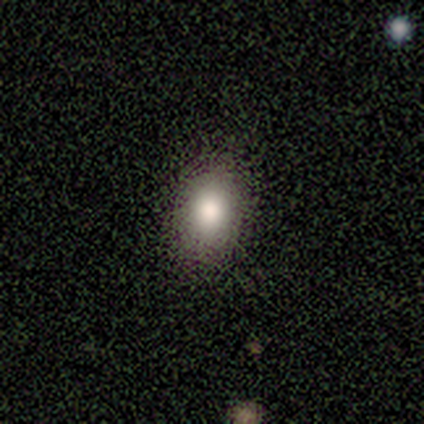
Smooth or featured? featured or disk (50%)
Edge-on disk? no (100%)
Bar? no (67%)
Spiral arms? no (100%)
Bulge size? large (67%)
Merging? none (100%)